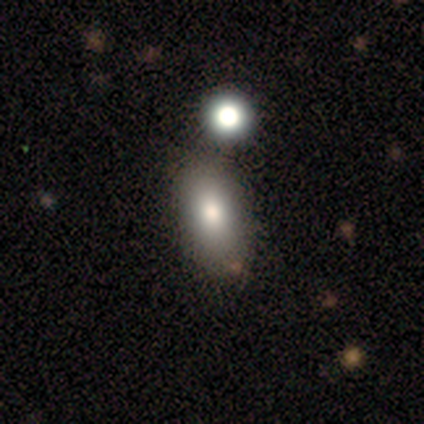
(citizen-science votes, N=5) Volunteers were most divided on "smooth or featured": smooth: 60%, featured or disk: 40%, star or artifact: 0%. More confident: how rounded — in between (100%); merging — none (60%).